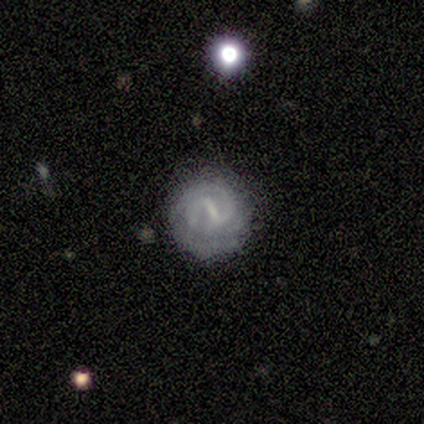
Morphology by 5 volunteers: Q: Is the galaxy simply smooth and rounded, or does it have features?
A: featured or disk — 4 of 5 (80%).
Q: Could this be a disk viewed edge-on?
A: no — 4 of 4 (100%).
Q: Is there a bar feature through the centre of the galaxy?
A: strong — 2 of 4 (50%, tied with weak).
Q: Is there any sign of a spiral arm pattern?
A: yes — 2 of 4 (50%, tied with no).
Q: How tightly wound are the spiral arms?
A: tight — 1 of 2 (50%, tied with medium).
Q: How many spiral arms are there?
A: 2 — 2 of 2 (100%).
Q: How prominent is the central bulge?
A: small — 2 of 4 (50%, tied with none).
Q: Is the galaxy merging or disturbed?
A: none — 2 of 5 (40%, tied with minor disturbance).